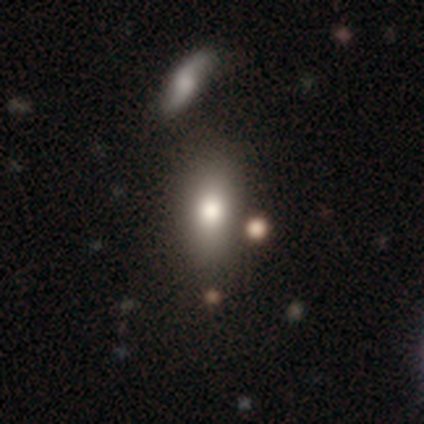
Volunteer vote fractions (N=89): smooth-or-featured: smooth: 75% | featured or disk: 17% | star or artifact: 8%
  how-rounded: in between: 75% | cigar-shaped: 16% | round: 9%
  merging: none: 66% | merger: 16% | minor disturbance: 13% | major disturbance: 5%